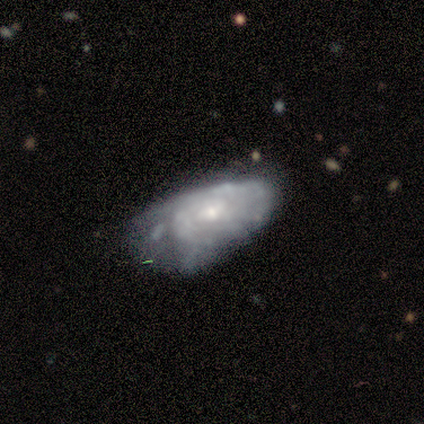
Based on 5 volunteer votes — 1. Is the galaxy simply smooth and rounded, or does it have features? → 100% featured or disk, 0% smooth, 0% star or artifact.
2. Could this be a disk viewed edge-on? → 100% no, 0% yes.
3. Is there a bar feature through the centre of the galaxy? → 100% no, 0% strong, 0% weak.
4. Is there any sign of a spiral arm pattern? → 80% yes, 20% no.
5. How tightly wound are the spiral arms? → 50% medium, 25% tight, 25% loose.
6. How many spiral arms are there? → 75% can't tell, 25% more than 4, 0% 1, 0% 2, 0% 3, 0% 4.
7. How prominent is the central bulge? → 40% moderate (tied), 40% small (tied), 20% large, 0% dominant, 0% none.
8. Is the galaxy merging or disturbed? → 80% none, 20% minor disturbance, 0% major disturbance, 0% merger.